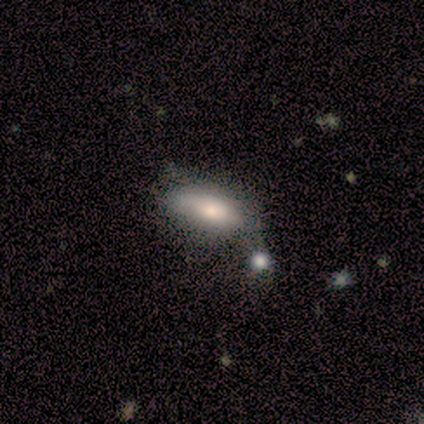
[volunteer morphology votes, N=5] type=smooth (100%); roundness=in between (80%); merging=minor disturbance (60%).